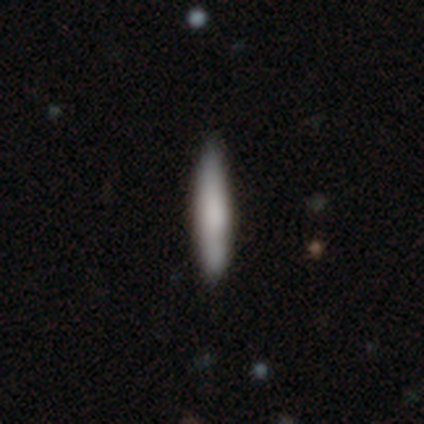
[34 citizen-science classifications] This appears to be a smooth galaxy with no disk features (59%) that is cigar-shaped (90%). Merging: none (94%).